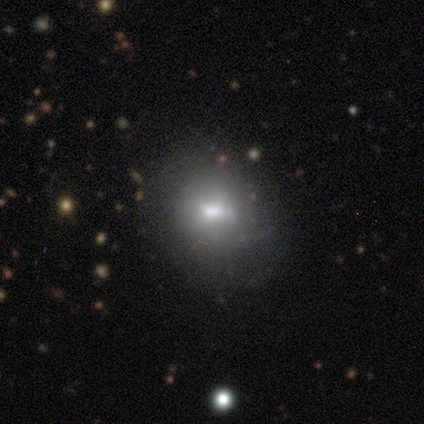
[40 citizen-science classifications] Smooth or featured? smooth (48%)
How rounded? in between (58%)
Merging? none (79%)